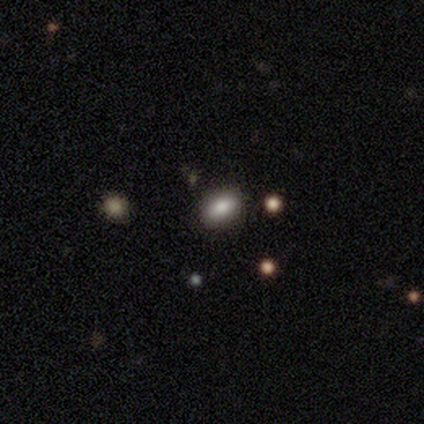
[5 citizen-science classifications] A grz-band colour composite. It shows a smooth galaxy with no disk features (80%) that is in between round and cigar-shaped (75%). Merging: none (80%).